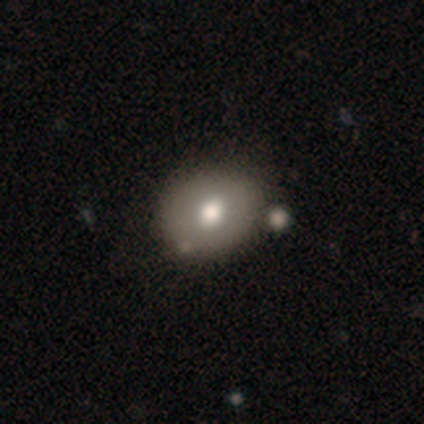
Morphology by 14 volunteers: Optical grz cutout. It shows a smooth galaxy with no disk features (57%) that is round (50%, tied with in between). Merging: none (62%).